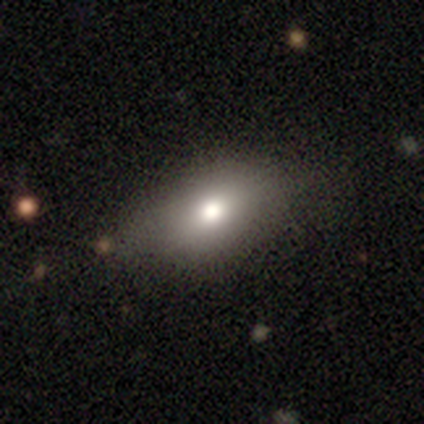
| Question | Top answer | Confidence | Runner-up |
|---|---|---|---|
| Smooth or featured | smooth | 71% | star or artifact (18%) |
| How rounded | in between | 83% | round (15%) |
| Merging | none | 81% | minor disturbance (15%) |